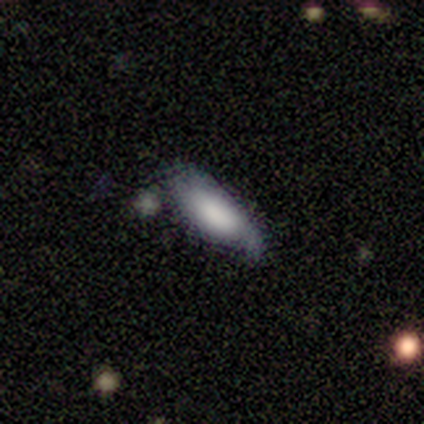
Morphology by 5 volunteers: A smooth galaxy with no disk features (60%) that is cigar-shaped (67%). Merging: none (75%).